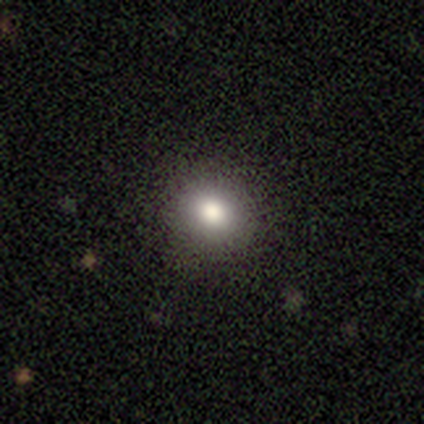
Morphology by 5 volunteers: smooth 80%, star or artifact 20%, featured or disk 0%. Down the decision tree: how rounded — round (75%); merging — none (100%).